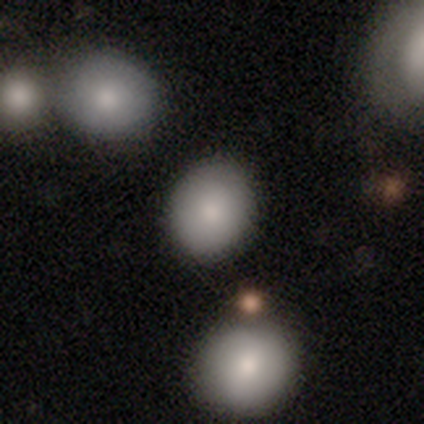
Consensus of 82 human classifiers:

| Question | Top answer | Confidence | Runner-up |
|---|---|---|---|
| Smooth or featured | smooth | 73% | star or artifact (15%) |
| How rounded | round | 65% | in between (35%) |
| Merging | none | 87% | minor disturbance (7%) |